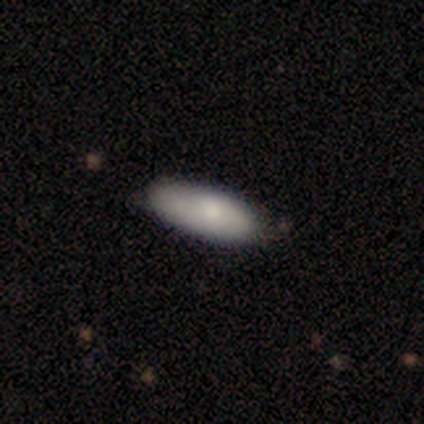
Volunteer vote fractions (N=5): A smooth galaxy with no disk features (100%) that is in between round and cigar-shaped (100%).

Vote fractions:
- Smooth or featured? smooth: 100% / featured or disk: 0% / star or artifact: 0%
- How rounded? in between: 100% / round: 0% / cigar-shaped: 0%
- Merging? none: 80% / minor disturbance: 20% / major disturbance: 0% / merger: 0%